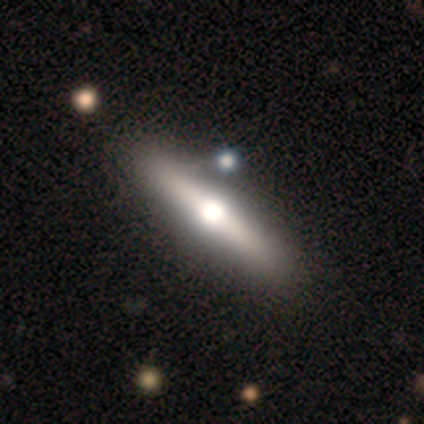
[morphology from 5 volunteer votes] A featured or disk galaxy (60%) viewed edge-on (100%) with a rounded central bulge (100%). Merging: none (80%).